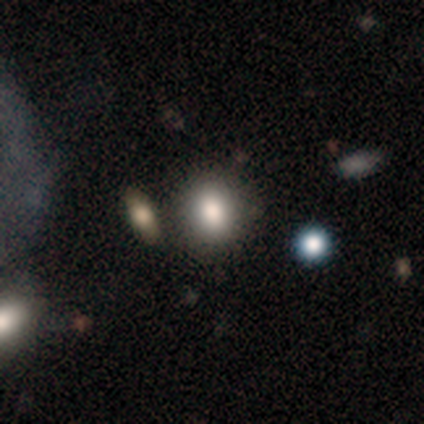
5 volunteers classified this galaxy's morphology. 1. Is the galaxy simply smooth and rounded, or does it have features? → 100% smooth, 0% featured or disk, 0% star or artifact.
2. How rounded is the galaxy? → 60% round, 40% in between, 0% cigar-shaped.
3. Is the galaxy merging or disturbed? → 80% none, 20% minor disturbance, 0% major disturbance, 0% merger.